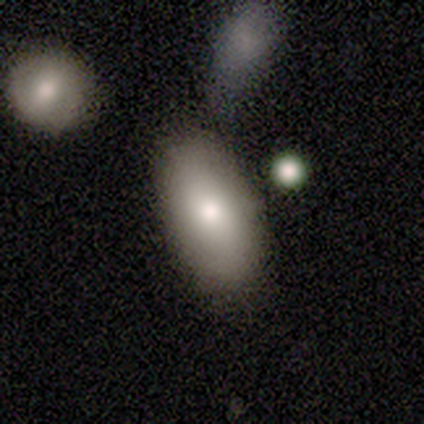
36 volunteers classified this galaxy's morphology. Smooth or featured? smooth (81%)
How rounded? in between (86%)
Merging? none (70%)